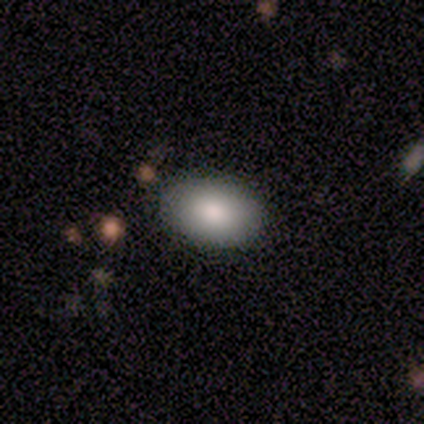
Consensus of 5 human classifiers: Smooth or featured? 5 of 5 (100%) said smooth. How rounded? 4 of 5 (80%) said in between. Merging? 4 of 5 (80%) said none.